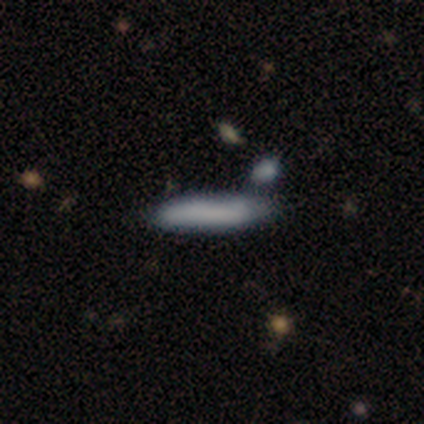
Overall: smooth (82%). How rounded: cigar-shaped (97%). Merging: none (61%; minor disturbance 26%).